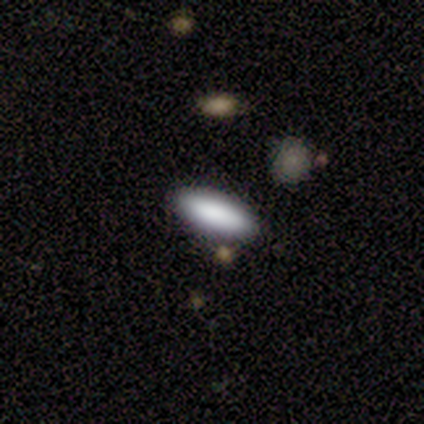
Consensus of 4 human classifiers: Smooth or featured? smooth (100%)
How rounded? in between (50%, tied with cigar-shaped)
Merging? none (100%)